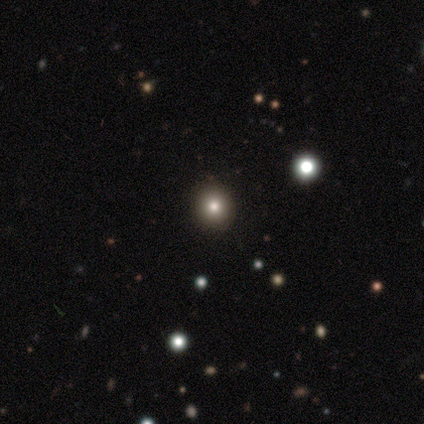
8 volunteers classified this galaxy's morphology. Volunteers were most divided on "smooth or featured": smooth: 50%, star or artifact: 38%, featured or disk: 12%. More confident: how rounded — round (100%); merging — none (100%).